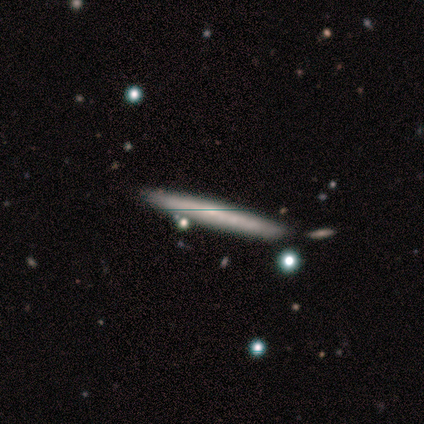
smooth 60%, featured or disk 20%, star or artifact 20%. Down the decision tree: how rounded — cigar-shaped (100%); merging — none (75%).